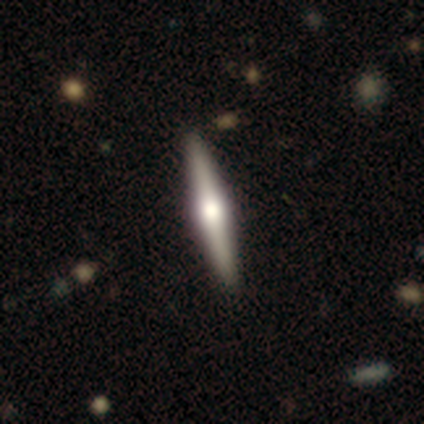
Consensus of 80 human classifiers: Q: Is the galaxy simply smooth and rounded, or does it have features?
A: featured or disk — 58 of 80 (72%).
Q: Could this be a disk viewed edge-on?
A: yes — 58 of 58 (100%).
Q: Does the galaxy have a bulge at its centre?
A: rounded — 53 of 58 (91%).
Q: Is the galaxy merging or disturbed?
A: none — 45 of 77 (58%).